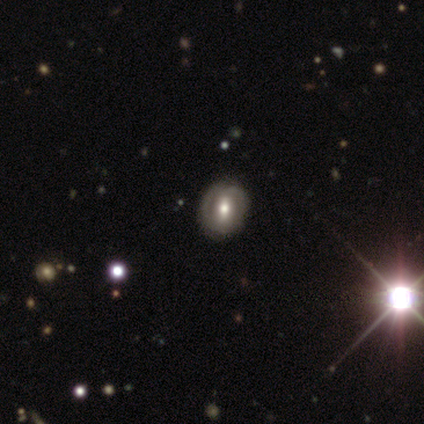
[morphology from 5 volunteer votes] smooth-or-featured: featured or disk: 60% | star or artifact: 40% | smooth: 0%
  disk-edge-on: no: 100% | yes: 0%
    bar: no: 100% | strong: 0% | weak: 0%
    has-spiral-arms: no: 67% | yes: 33%
    bulge-size: moderate: 67% | small: 33% | dominant: 0% | large: 0% | none: 0%
  merging: none: 100% | minor disturbance: 0% | major disturbance: 0% | merger: 0%